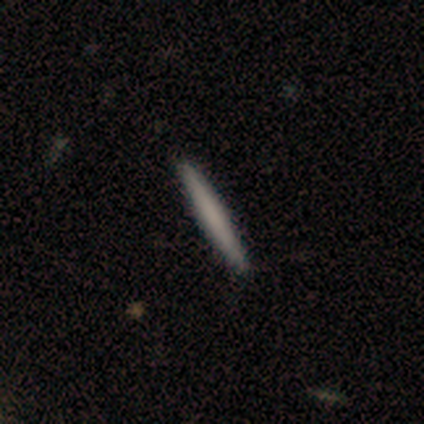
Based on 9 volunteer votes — This is likely a smooth galaxy (78%). How rounded: clearly cigar-shaped (100%). Merging: clearly none (100%).